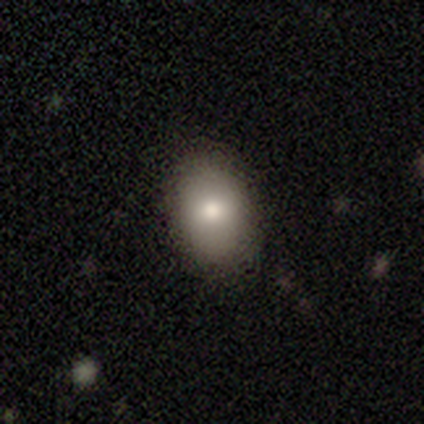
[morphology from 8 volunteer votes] Smooth or featured? 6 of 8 (75%) said smooth. How rounded? 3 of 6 (50%, tied with in between) said round. Merging? 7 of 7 (100%) said none.